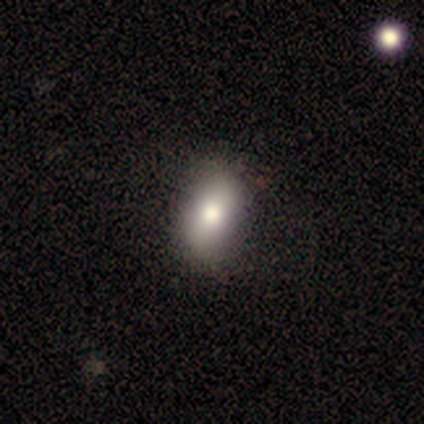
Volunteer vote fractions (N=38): smooth_or_featured: smooth (p=0.71) [alt: featured or disk p=0.24]
how_rounded: in between (p=0.85) [alt: round p=0.11]
merging: none (p=0.69) [alt: minor disturbance p=0.06]